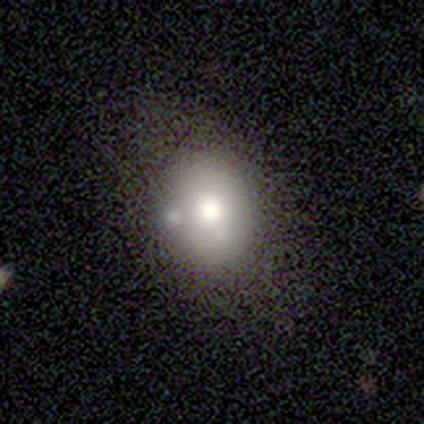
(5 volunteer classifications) A smooth galaxy with no disk features (60%) that is round (67%). Merging: minor disturbance (50%, tied with merger).